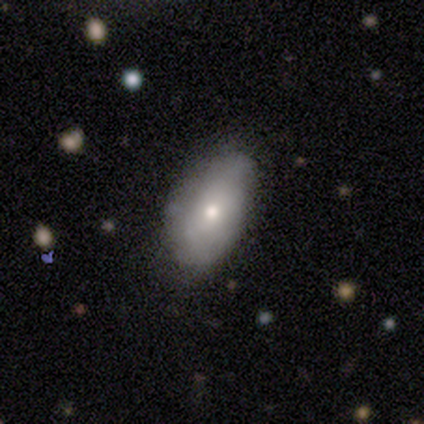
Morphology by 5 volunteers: Overall: smooth (80%). How rounded: in between (100%). Merging: none (80%).